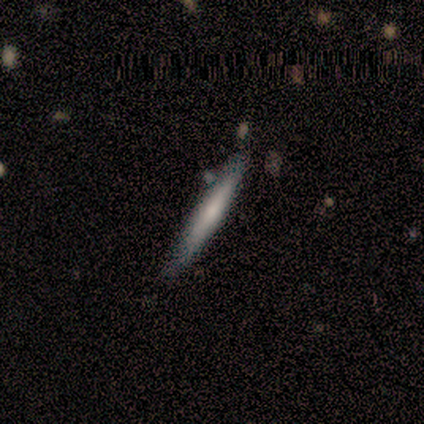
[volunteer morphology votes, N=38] smooth-or-featured: smooth: 63% | featured or disk: 37% | star or artifact: 0%
  how-rounded: cigar-shaped: 96% | in between: 4% | round: 0%
  merging: none: 76% | merger: 13% | minor disturbance: 11% | major disturbance: 0%